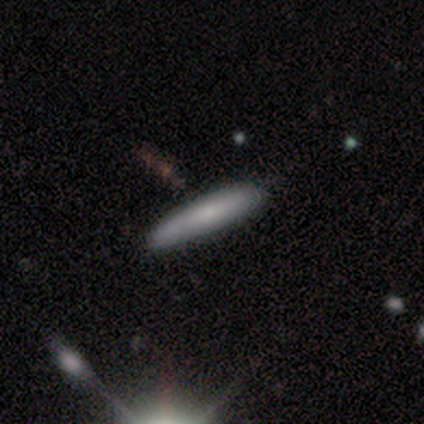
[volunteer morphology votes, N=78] Smooth or featured: smooth — 81% (featured or disk — 18%)
How rounded: cigar-shaped — 92% (in between — 8%)
Merging: none — 39% (minor disturbance — 8%)